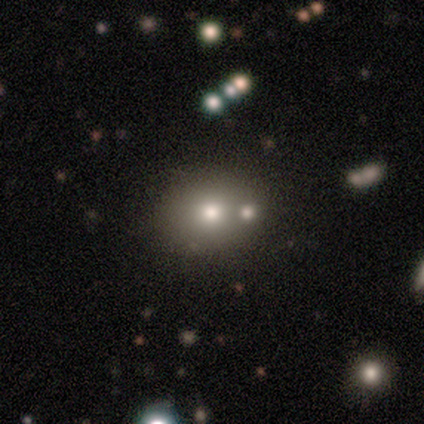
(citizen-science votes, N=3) smooth_or_featured: star or artifact (p=0.67) [alt: smooth p=0.33]